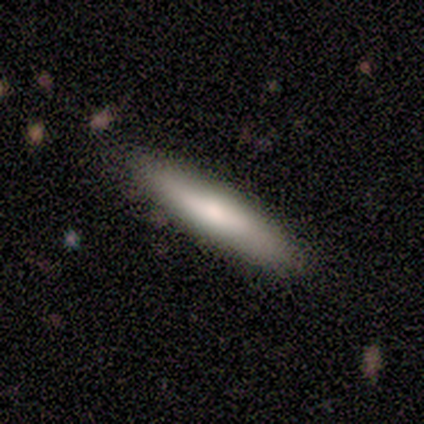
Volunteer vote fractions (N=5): This is likely a smooth galaxy (60%). How rounded: clearly cigar-shaped (100%). Merging: clearly none (80%).